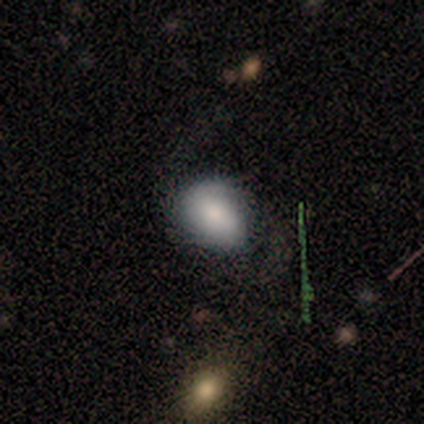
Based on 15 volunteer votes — Volunteers were most divided on "merging" (2-way tie): none: 40%, minor disturbance: 40%, major disturbance: 20%, merger: 0%. More confident: smooth or featured — smooth (73%); how rounded — in between (73%).